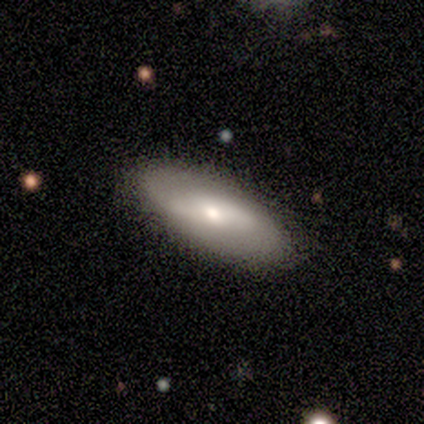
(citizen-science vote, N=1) smooth_or_featured: featured or disk (p=1.00)
disk_edge_on: no (p=1.00)
bar: weak (p=1.00)
has_spiral_arms: no (p=1.00)
bulge_size: moderate (p=1.00)
merging: none (p=1.00)